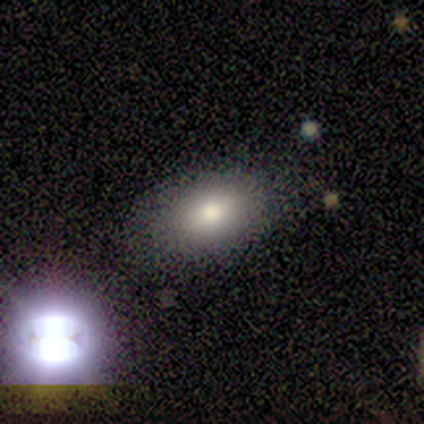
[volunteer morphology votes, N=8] Smooth or featured: smooth — 75% (star or artifact — 25%)
How rounded: in between — 100%
Merging: none — 67% (minor disturbance — 33%)